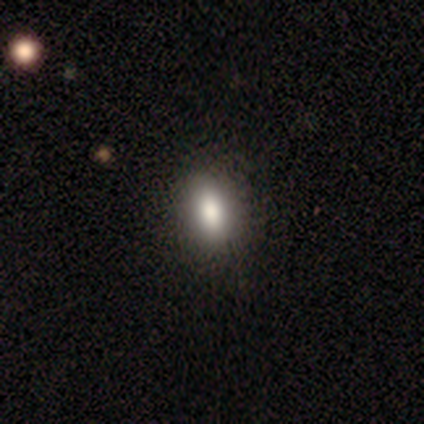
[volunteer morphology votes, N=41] This appears to be a smooth galaxy with no disk features (95%) that is in between round and cigar-shaped (79%). Merging: none (55%).